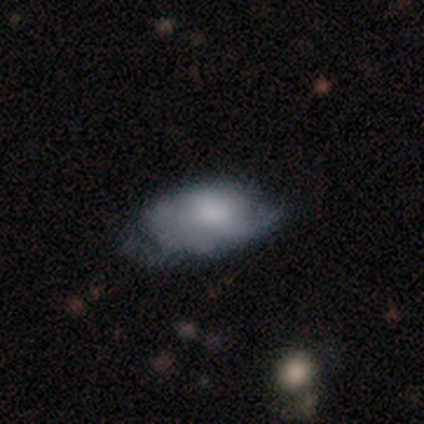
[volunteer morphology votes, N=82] featured or disk 54%, smooth 44%, star or artifact 2%. Down the decision tree: edge-on disk — no (98%); bar — no (74%); spiral arms — no (60%); bulge size — moderate (28%, tied with none); merging — major disturbance (40%).